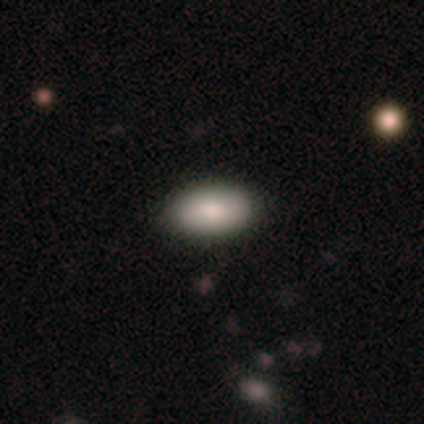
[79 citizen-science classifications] A smooth galaxy with no disk features (84%) that is in between round and cigar-shaped (95%). Merging: none (44%).